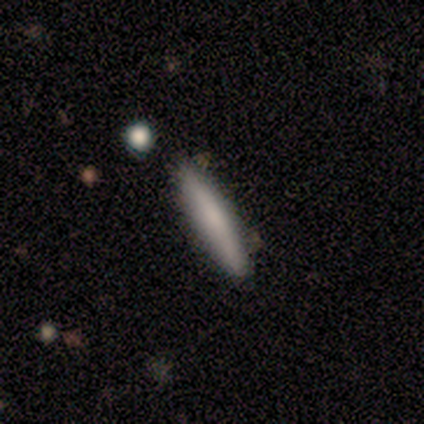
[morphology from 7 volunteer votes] smooth-or-featured: featured or disk: 71% | smooth: 29% | star or artifact: 0%
  disk-edge-on: yes: 100% | no: 0%
    edge-on-bulge: boxy: 40% (tied) | none: 40% (tied) | rounded: 20%
  merging: none: 100% | minor disturbance: 0% | major disturbance: 0% | merger: 0%